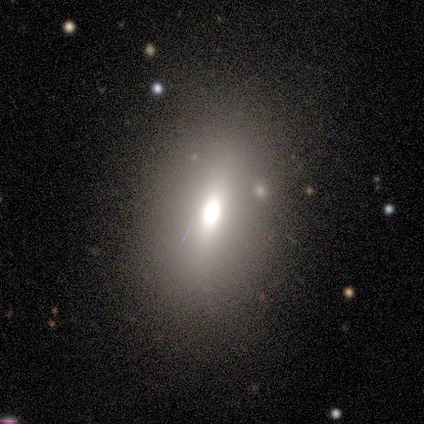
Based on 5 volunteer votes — A star or artifact, not a galaxy (80%).